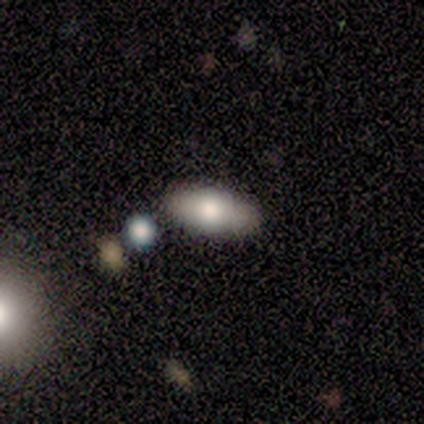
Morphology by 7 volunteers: Volunteers were most divided on "smooth or featured": smooth: 57%, featured or disk: 43%, star or artifact: 0%. More confident: how rounded — in between (100%); merging — none (100%).